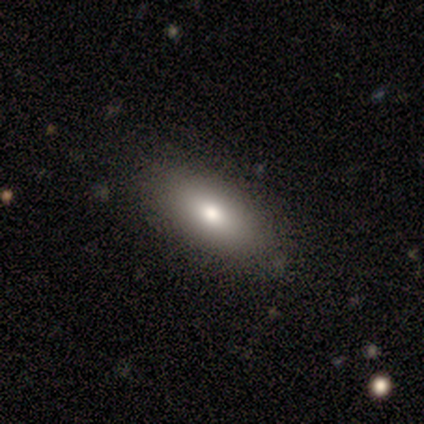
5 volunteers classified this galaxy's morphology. Q: Smooth or featured?
A: smooth (100%)
Q: How rounded?
A: in between (60%); runner-up: cigar-shaped (40%)
Q: Merging?
A: none (100%)